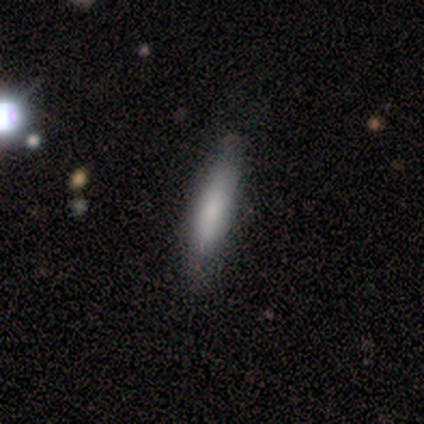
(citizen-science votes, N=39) Smooth or featured? 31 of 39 (79%) said smooth. How rounded? 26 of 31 (84%) said cigar-shaped. Merging? 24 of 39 (62%) said none.